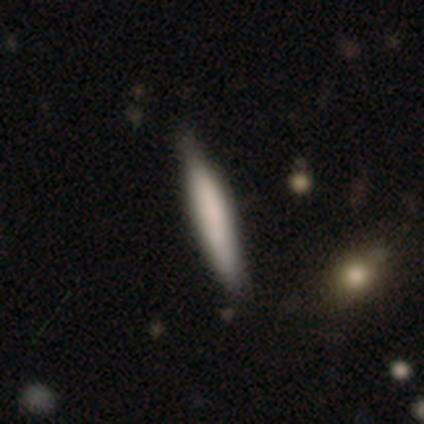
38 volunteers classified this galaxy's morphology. This appears to be a smooth galaxy with no disk features (68%) that is cigar-shaped (96%). Merging: none (47%).